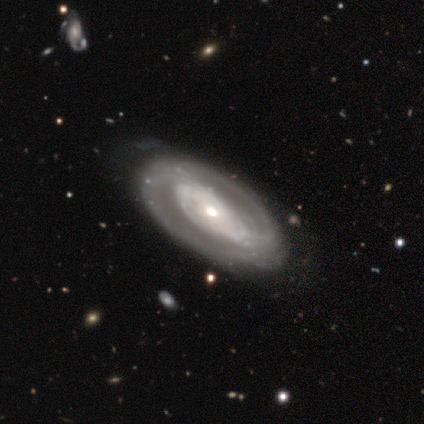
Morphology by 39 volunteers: smooth-or-featured: featured or disk: 85% | smooth: 15% | star or artifact: 0%
  disk-edge-on: no: 97% | yes: 3%
    bar: no: 66% | strong: 22% | weak: 12%
    has-spiral-arms: yes: 72% | no: 28%
      spiral-winding: tight: 70% | medium: 17% | loose: 13%
      spiral-arm-count: 2: 70% | can't tell: 26% | 1: 4% | 3: 0% | 4: 0% | more than 4: 0%
    bulge-size: moderate: 53% | small: 38% | large: 9% | dominant: 0% | none: 0%
  merging: none: 46% | minor disturbance: 15% | major disturbance: 10% | merger: 0%